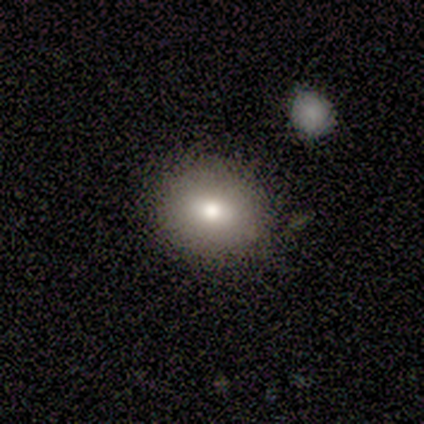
Smooth or featured? 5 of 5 (100%) said smooth. How rounded? 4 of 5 (80%) said in between. Merging? 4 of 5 (80%) said none.